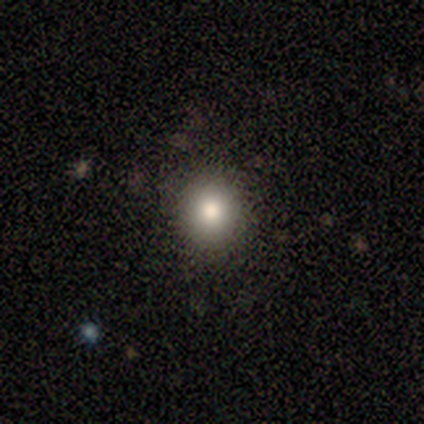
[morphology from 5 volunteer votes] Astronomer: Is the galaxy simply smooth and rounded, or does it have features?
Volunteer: smooth — 100%.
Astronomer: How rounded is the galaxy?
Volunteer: round — 100%.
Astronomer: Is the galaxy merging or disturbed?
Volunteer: none — 100%.